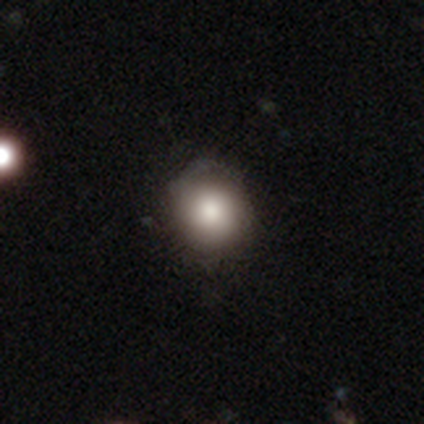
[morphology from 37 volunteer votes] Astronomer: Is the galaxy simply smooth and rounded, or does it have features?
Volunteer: smooth — 81%.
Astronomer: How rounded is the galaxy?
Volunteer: round — 90%.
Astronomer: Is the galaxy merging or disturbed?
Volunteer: none — 65%.